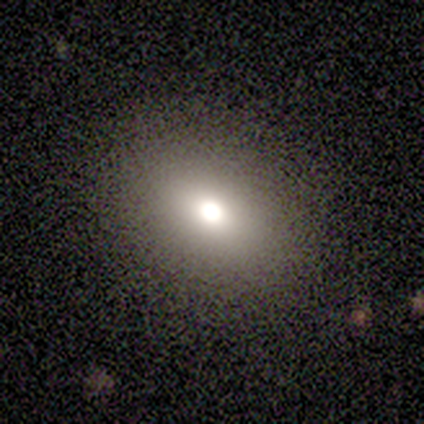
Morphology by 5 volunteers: A smooth galaxy with no disk features (80%) that is round (50%, tied with in between). Merging: none (75%).